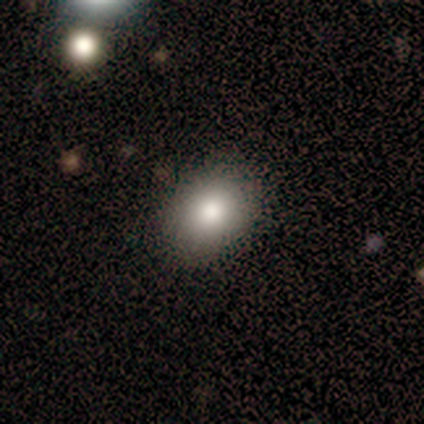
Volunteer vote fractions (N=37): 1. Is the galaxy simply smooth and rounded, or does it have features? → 84% smooth, 11% featured or disk, 5% star or artifact.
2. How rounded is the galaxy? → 55% in between, 45% round, 0% cigar-shaped.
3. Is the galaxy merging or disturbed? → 91% none, 9% minor disturbance, 0% major disturbance, 0% merger.